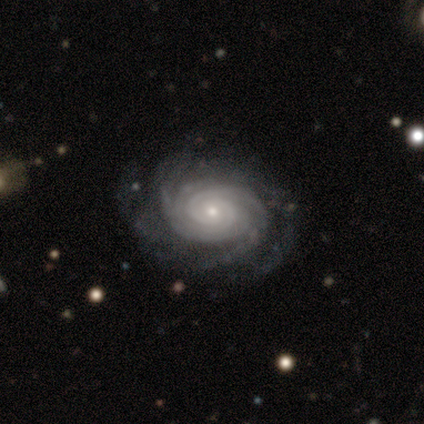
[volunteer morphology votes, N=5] Smooth or featured?
  - featured or disk: 100% *
  - smooth: 0%
  - star or artifact: 0%
Edge-on disk?
  - no: 100% *
  - yes: 0%
Bar?
  - no: 60% *
  - weak: 40%
  - strong: 0%
Spiral arms?
  - yes: 100% *
  - no: 0%
Spiral winding?
  - tight: 100% *
  - medium: 0%
  - loose: 0%
Spiral arm count?
  - 3: 40% * (tied)
  - 4: 40% * (tied)
  - 2: 20%
  - 1: 0%
  - more than 4: 0%
  - can't tell: 0%
Bulge size?
  - small: 100% *
  - dominant: 0%
  - large: 0%
  - moderate: 0%
  - none: 0%
Merging?
  - none: 60% *
  - minor disturbance: 40%
  - major disturbance: 0%
  - merger: 0%